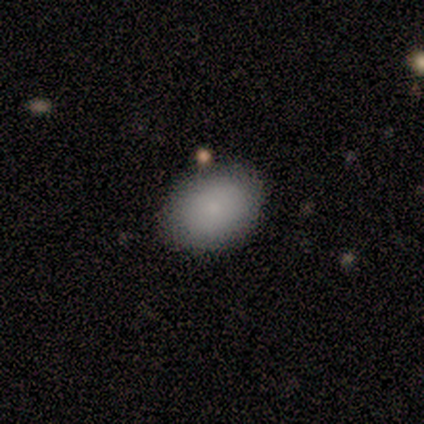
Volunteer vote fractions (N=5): Q: Smooth or featured?
A: smooth (100%)
Q: How rounded?
A: in between (100%)
Q: Merging?
A: none (80%); runner-up: merger (20%)